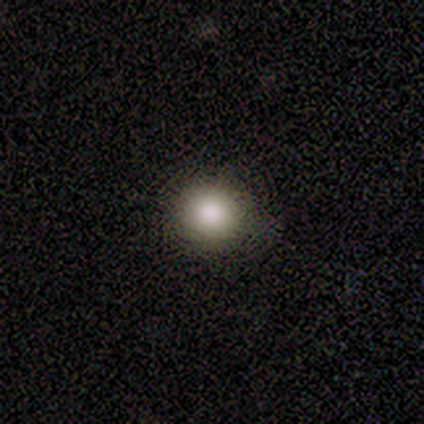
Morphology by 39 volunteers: type=smooth (97%); roundness=round (92%); merging=none (79%).